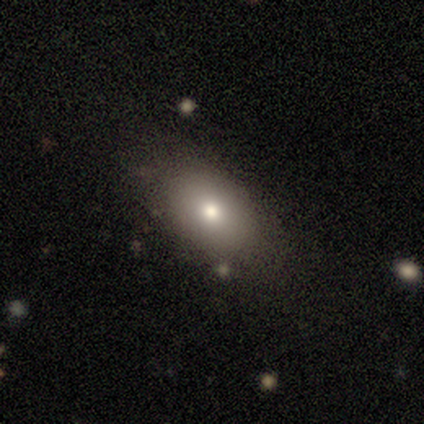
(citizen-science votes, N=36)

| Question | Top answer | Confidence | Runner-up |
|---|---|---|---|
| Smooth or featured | smooth | 72% | featured or disk (14%) |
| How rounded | in between | 88% | round (12%) |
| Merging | none | 71% | minor disturbance (19%) |